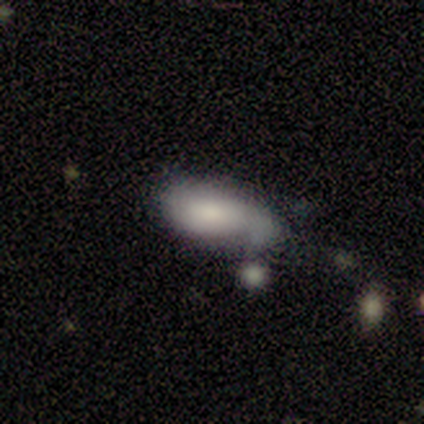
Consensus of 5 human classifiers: Volunteers were most divided on "merging": none: 60%, major disturbance: 20%, merger: 20%, minor disturbance: 0%. More confident: how rounded — in between (100%); smooth or featured — smooth (80%).